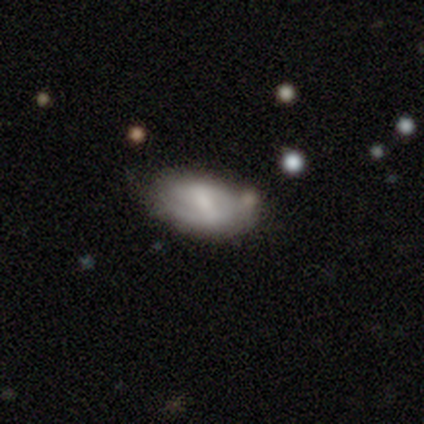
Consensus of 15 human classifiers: Smooth or featured? featured or disk (67%)
Edge-on disk? no (100%)
Bar? weak (50%)
Spiral arms? yes (70%)
Spiral winding? medium (43%)
Spiral arm count? 2 (57%)
Bulge size? small (50%)
Merging? none (43%)